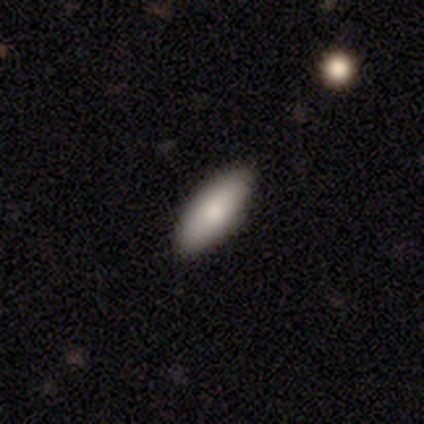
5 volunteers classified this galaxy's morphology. smooth 100%, featured or disk 0%, star or artifact 0%. Down the decision tree: how rounded — in between (80%); merging — none (100%).